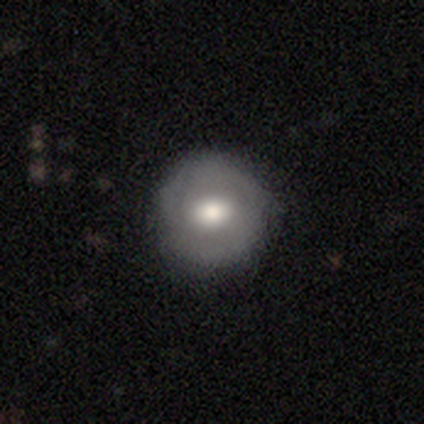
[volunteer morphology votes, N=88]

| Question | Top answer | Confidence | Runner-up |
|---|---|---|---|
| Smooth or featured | smooth | 51% | featured or disk (43%) |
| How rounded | round | 96% | in between (4%) |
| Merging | none | 89% | minor disturbance (6%) |